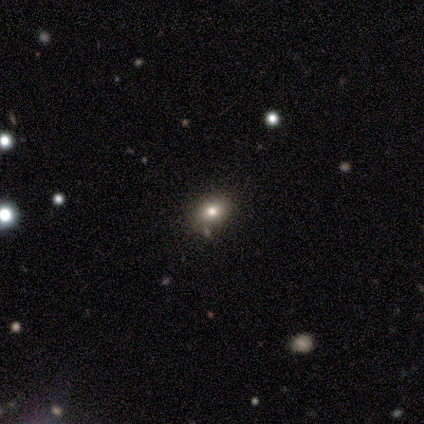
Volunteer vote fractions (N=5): Q: Smooth or featured?
A: smooth (80%); runner-up: featured or disk (20%)
Q: How rounded?
A: in between (100%)
Q: Merging?
A: none (60%); runner-up: minor disturbance (20%)